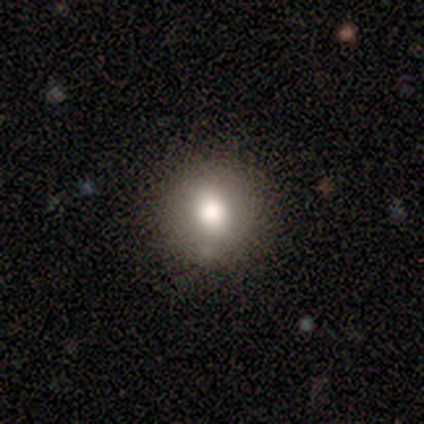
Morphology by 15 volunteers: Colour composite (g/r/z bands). It shows a smooth galaxy with no disk features (67%) that is round (100%). Merging: none (67%).